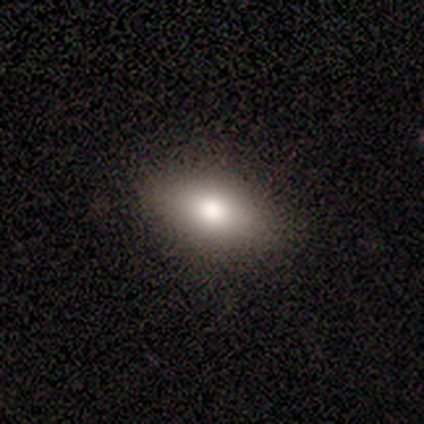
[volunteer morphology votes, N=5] smooth 60%, featured or disk 40%, star or artifact 0%. Down the decision tree: how rounded — in between (67%); merging — none (80%).